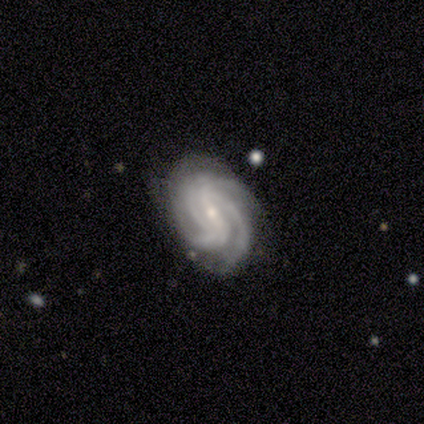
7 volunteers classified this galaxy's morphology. This is clearly a featured or disk galaxy (86%). It is clearly not viewed edge-on (100%). Bar: possibly strong (50%). Spiral arm pattern: clearly yes (100%). Spiral arm count: likely 3 (67%). Spiral winding: likely tight (67%). Central bulge: clearly small (83%). Merging: clearly none (83%).